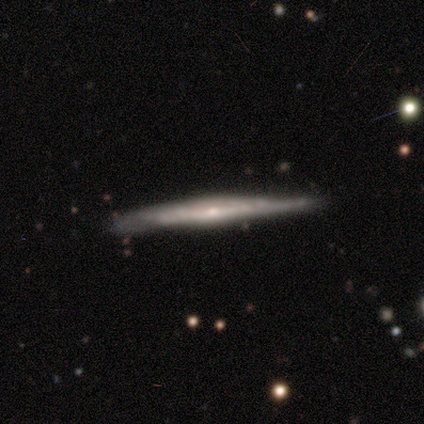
Volunteers were most divided on "edge-on bulge" (2-way tie): none: 50%, rounded: 50%, boxy: 0%. More confident: smooth or featured — featured or disk (85%); edge-on disk — yes (79%); merging — none (66%).